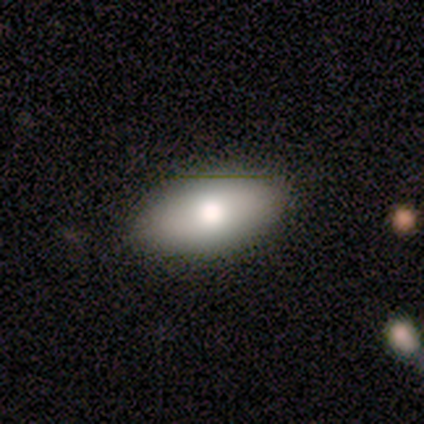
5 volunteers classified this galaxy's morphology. type=smooth (80%); roundness=in between (100%); merging=none (80%).